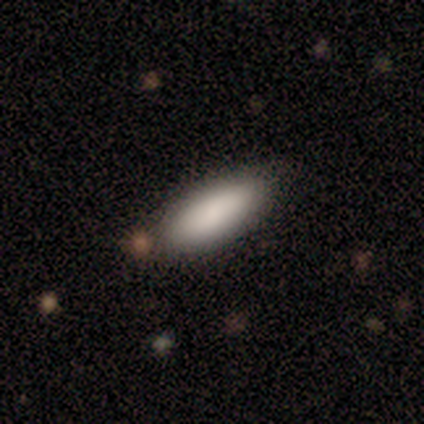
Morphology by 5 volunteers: This appears to be a smooth galaxy with no disk features (100%) that is in between round and cigar-shaped (80%). Merging: none (60%).